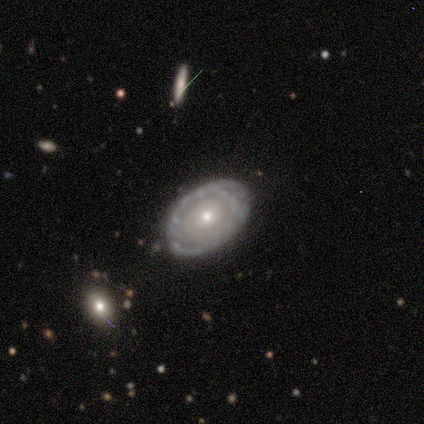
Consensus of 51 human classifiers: A featured or disk galaxy (73%) with no bar (100%), tight (86%) spiral arms (61%) and a small central bulge (67%).

Vote fractions:
- Smooth or featured? featured or disk: 73% / smooth: 24% / star or artifact: 4%
- Edge-on disk? no: 97% / yes: 3%
- Bar? no: 100% / strong: 0% / weak: 0%
- Spiral arms? yes: 61% / no: 39%
- Spiral winding? tight: 86% / medium: 14% / loose: 0%
- Spiral arm count? can't tell: 59% / 2: 23% / 1: 9% / 3: 5% / more than 4: 5% / 4: 0%
- Bulge size? small: 67% / moderate: 28% / large: 6% / dominant: 0% / none: 0%
- Merging? none: 82% / minor disturbance: 10% / major disturbance: 6% / merger: 2%